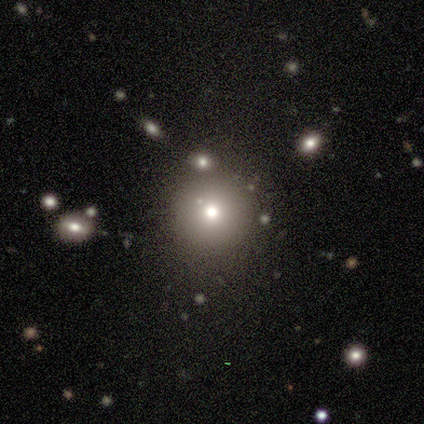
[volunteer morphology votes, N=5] Smooth or featured?
  - smooth: 60% *
  - featured or disk: 20%
  - star or artifact: 20%
How rounded?
  - round: 100% *
  - in between: 0%
  - cigar-shaped: 0%
Merging?
  - none: 100% *
  - minor disturbance: 0%
  - major disturbance: 0%
  - merger: 0%